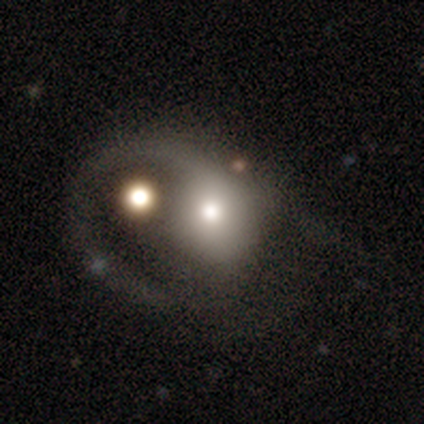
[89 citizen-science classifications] Smooth or featured? featured or disk (53%)
Edge-on disk? no (100%)
Bar? no (87%)
Spiral arms? yes (72%)
Spiral winding? loose (74%)
Spiral arm count? 1 (82%)
Bulge size? moderate (62%)
Merging? major disturbance (59%)